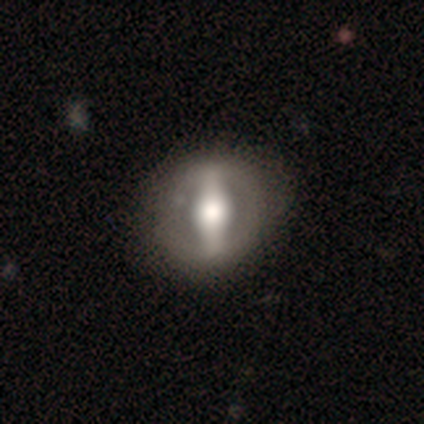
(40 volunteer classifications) Morphology: type=featured or disk (85%); edge-on=no (91%); bar=strong (94%); spiral arms=no (87%); bulge=large (52%); merging=none (52%).